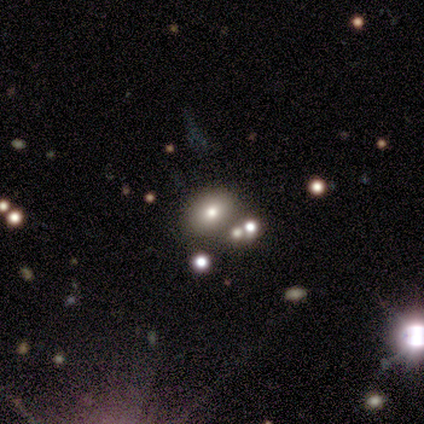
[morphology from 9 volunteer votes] Smooth or featured: smooth — 78% (featured or disk — 11%)
How rounded: in between — 100%
Merging: none — 75% (minor disturbance — 12%)